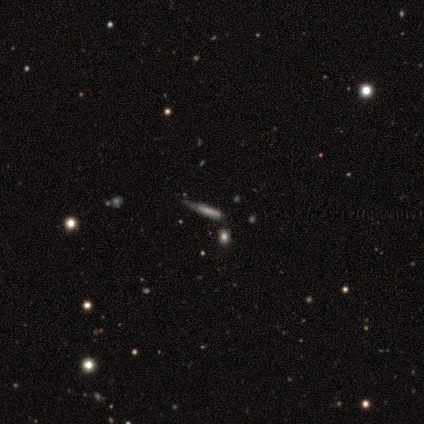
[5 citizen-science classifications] Q: Smooth or featured?
A: featured or disk (60%); runner-up: smooth (20%)
Q: Edge-on disk?
A: yes (100%)
Q: Edge-on bulge?
A: none (100%)
Q: Merging?
A: none (50%); tied with: minor disturbance (50%)